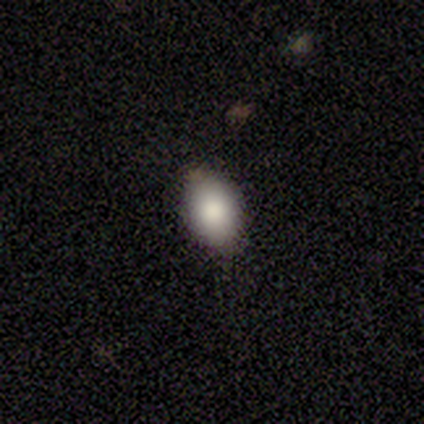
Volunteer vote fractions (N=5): smooth 80%, star or artifact 20%, featured or disk 0%. Down the decision tree: how rounded — in between (100%); merging — none (100%).